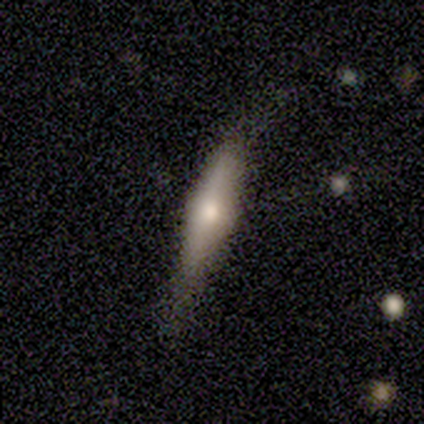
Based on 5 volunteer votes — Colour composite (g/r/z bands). It shows a featured or disk galaxy (60%) viewed edge-on (100%) with a rounded central bulge (100%). Merging: none (40%, tied with minor disturbance).